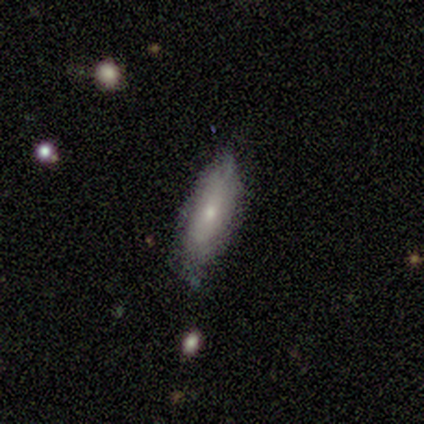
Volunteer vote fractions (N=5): Q: Smooth or featured?
A: smooth (60%); runner-up: featured or disk (40%)
Q: How rounded?
A: in between (67%); runner-up: cigar-shaped (33%)
Q: Merging?
A: none (80%); runner-up: minor disturbance (20%)